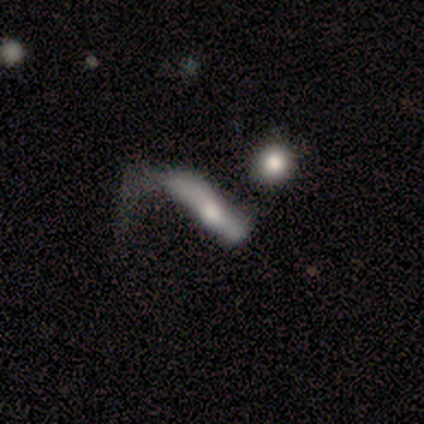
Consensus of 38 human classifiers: smooth 47%, featured or disk 42%, star or artifact 11%. Down the decision tree: how rounded — cigar-shaped (89%); merging — major disturbance (65%).